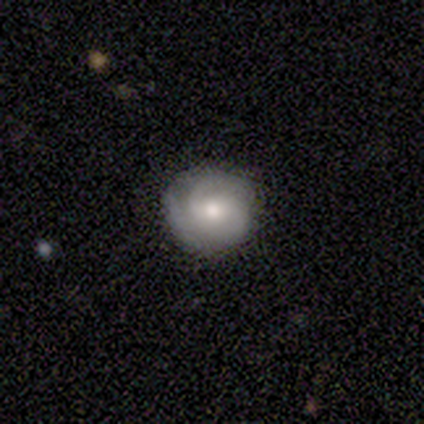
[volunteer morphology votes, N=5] smooth-or-featured: featured or disk: 60% | smooth: 40% | star or artifact: 0%
  disk-edge-on: no: 100% | yes: 0%
    bar: no: 67% | weak: 33% | strong: 0%
    has-spiral-arms: yes: 100% | no: 0%
      spiral-winding: medium: 100% | tight: 0% | loose: 0%
      spiral-arm-count: 3: 100% | 1: 0% | 2: 0% | 4: 0% | more than 4: 0% | can't tell: 0%
    bulge-size: moderate: 100% | dominant: 0% | large: 0% | small: 0% | none: 0%
  merging: none: 80% | major disturbance: 20% | minor disturbance: 0% | merger: 0%